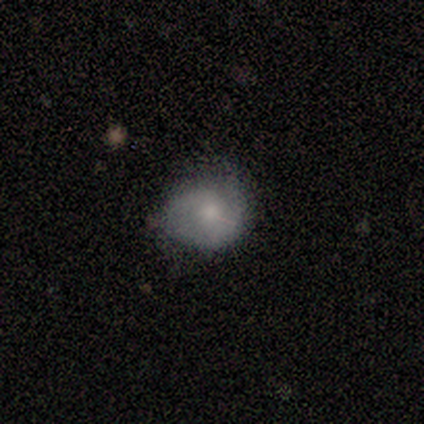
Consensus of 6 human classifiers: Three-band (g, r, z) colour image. It shows a smooth galaxy with no disk features (67%) that is round (100%). Merging: none (50%).